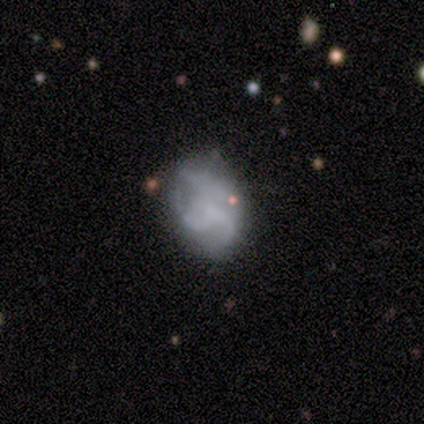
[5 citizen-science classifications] Smooth or featured?
  - featured or disk: 60% *
  - smooth: 20%
  - star or artifact: 20%
Edge-on disk?
  - no: 100% *
  - yes: 0%
Bar?
  - no: 100% *
  - strong: 0%
  - weak: 0%
Spiral arms?
  - yes: 67% *
  - no: 33%
Spiral winding?
  - medium: 50% * (tied)
  - loose: 50% * (tied)
  - tight: 0%
Spiral arm count?
  - can't tell: 100% *
  - 1: 0%
  - 2: 0%
  - 3: 0%
  - 4: 0%
  - more than 4: 0%
Bulge size?
  - none: 67% *
  - small: 33%
  - dominant: 0%
  - large: 0%
  - moderate: 0%
Merging?
  - minor disturbance: 50% * (tied)
  - major disturbance: 50% * (tied)
  - none: 0%
  - merger: 0%